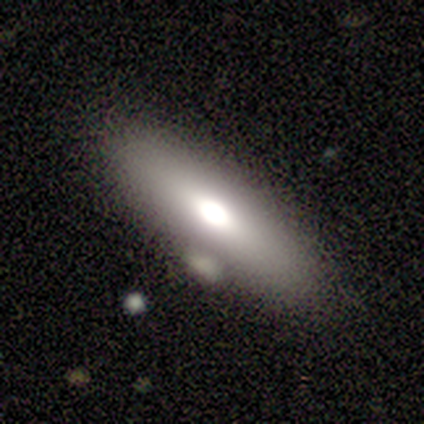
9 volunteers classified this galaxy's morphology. Smooth or featured? 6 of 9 (67%) said smooth. How rounded? 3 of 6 (50%) said in between. Merging? 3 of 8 (38%) said none.